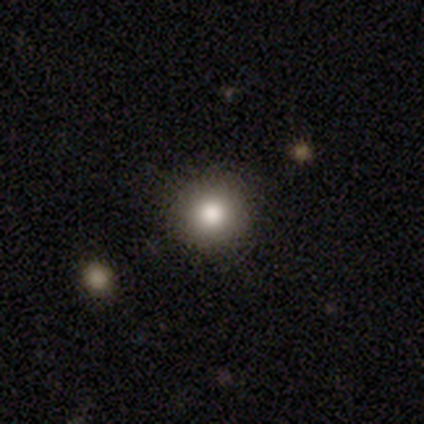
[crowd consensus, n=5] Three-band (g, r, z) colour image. It shows a smooth galaxy with no disk features (100%) that is round (100%). Merging: none (80%).